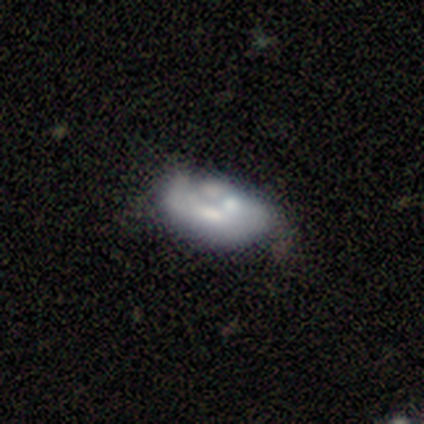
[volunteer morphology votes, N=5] This is clearly a smooth galaxy (80%). How rounded: clearly in between (100%). Merging: likely minor disturbance (60%).